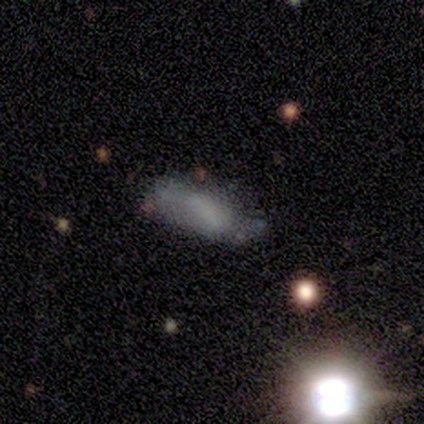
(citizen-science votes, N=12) smooth 67%, featured or disk 25%, star or artifact 8%. Down the decision tree: how rounded — in between (75%); merging — none (45%, tied with minor disturbance).